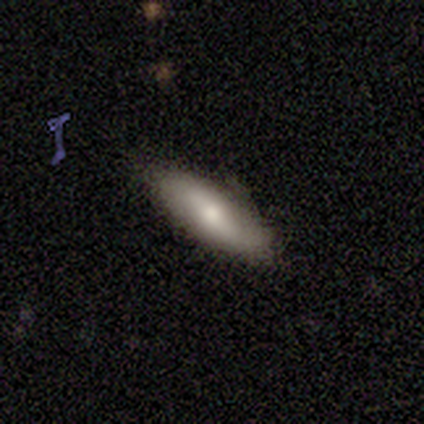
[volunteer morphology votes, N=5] Overall: smooth (100%). How rounded: in between (80%). Merging: none (80%).